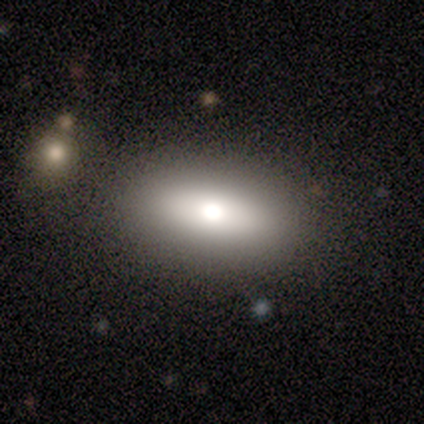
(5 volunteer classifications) This is likely a smooth galaxy (60%). How rounded: clearly in between (100%). Merging: clearly none (100%).